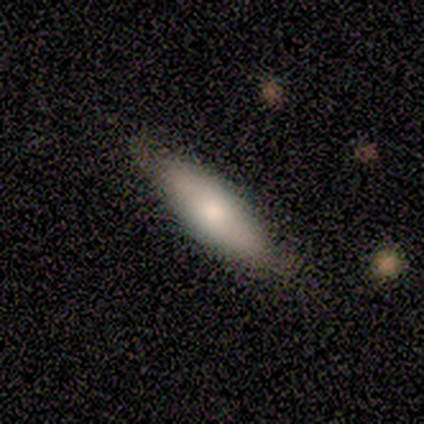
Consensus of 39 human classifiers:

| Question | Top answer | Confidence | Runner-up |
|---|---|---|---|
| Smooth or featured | smooth | 64% | featured or disk (31%) |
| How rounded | in between | 56% | cigar-shaped (44%) |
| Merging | none | 51% | minor disturbance (11%) |